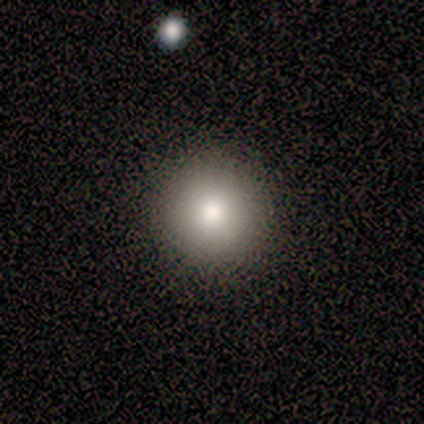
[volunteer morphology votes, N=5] This is likely a smooth galaxy (60%). How rounded: likely round (67%). Merging: clearly none (100%).